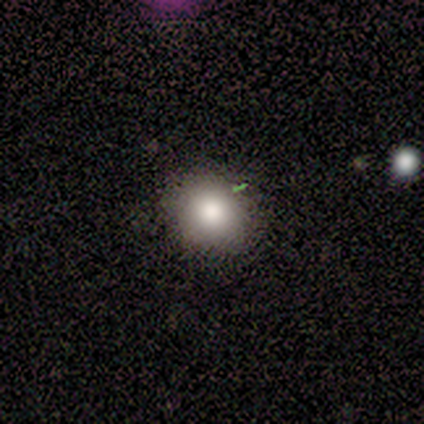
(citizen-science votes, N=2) Overall: smooth (50%, tied with star or artifact). How rounded: in between (100%). Merging: none (100%).